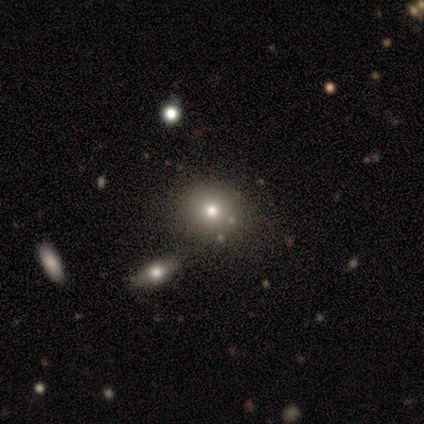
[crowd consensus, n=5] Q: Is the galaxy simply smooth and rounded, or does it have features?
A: smooth — 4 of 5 (80%).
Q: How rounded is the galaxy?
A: round — 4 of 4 (100%).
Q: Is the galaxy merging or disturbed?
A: none — 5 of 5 (100%).